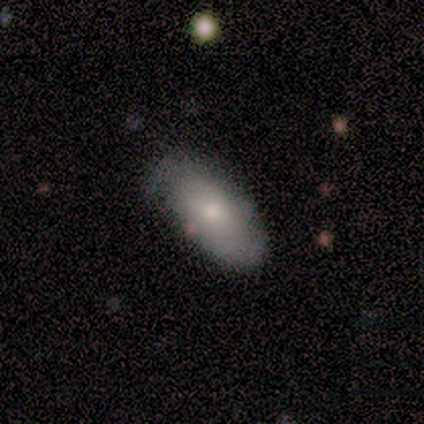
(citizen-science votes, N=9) Morphology: type=smooth (67%); roundness=in between (100%); merging=minor disturbance (56%).